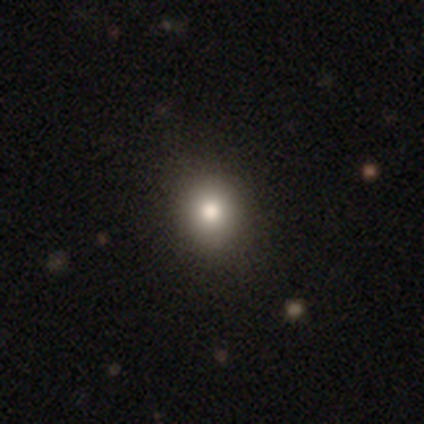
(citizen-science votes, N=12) Overall: smooth (50%; featured or disk 33%). How rounded: round (100%). Merging: none (90%).